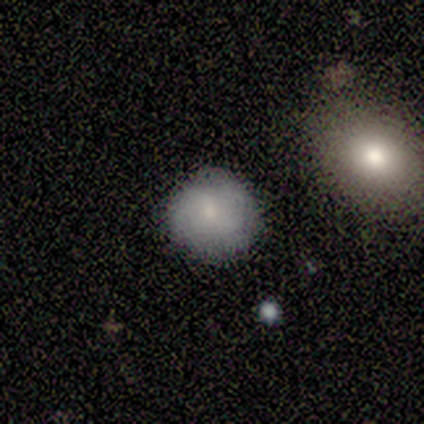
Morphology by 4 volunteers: Smooth or featured?
  - smooth: 75% *
  - featured or disk: 25%
  - star or artifact: 0%
How rounded?
  - round: 100% *
  - in between: 0%
  - cigar-shaped: 0%
Merging?
  - none: 100% *
  - minor disturbance: 0%
  - major disturbance: 0%
  - merger: 0%